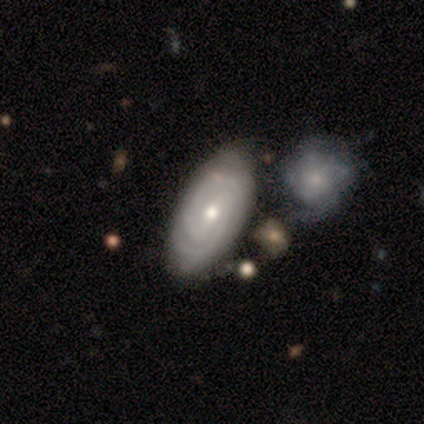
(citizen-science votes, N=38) Morphology: type=featured or disk (76%); edge-on=no (93%); bar=no (48%); spiral arms=yes (93%); winding=tight (72%); arm count=2 (64%); bulge=moderate (67%); merging=none (68%).